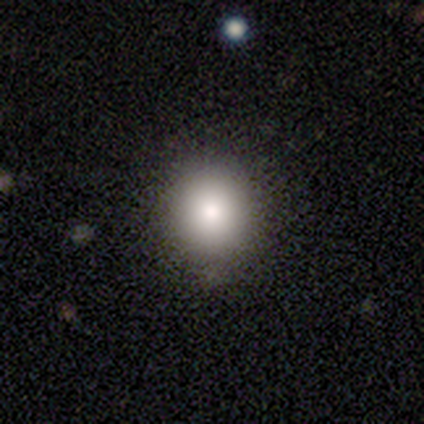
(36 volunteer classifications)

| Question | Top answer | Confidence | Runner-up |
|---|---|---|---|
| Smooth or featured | smooth | 83% | star or artifact (11%) |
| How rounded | round | 87% | in between (10%) |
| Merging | none | 81% | minor disturbance (12%) |